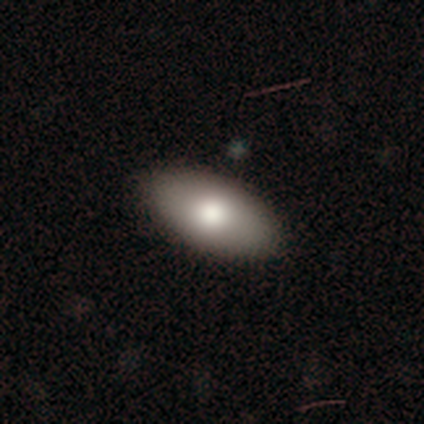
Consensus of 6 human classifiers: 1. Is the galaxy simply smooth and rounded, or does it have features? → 67% smooth, 17% featured or disk, 17% star or artifact.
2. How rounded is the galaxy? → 100% in between, 0% round, 0% cigar-shaped.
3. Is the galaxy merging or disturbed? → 80% none, 20% minor disturbance, 0% major disturbance, 0% merger.